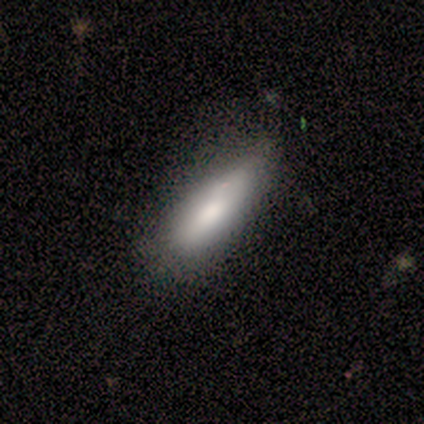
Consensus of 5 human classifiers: smooth_or_featured: smooth (p=1.00)
how_rounded: in between (p=0.80) [alt: cigar-shaped p=0.20]
merging: none (p=0.60) [alt: minor disturbance p=0.40]